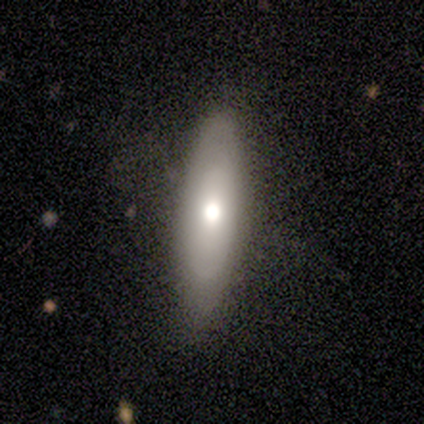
Q: Smooth or featured?
A: smooth (60%); runner-up: featured or disk (20%)
Q: How rounded?
A: in between (67%); runner-up: cigar-shaped (33%)
Q: Merging?
A: none (50%); tied with: minor disturbance (50%)